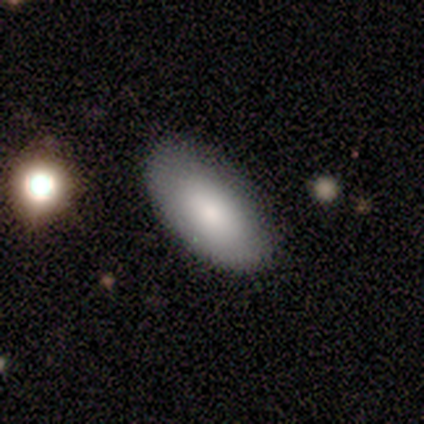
smooth_or_featured: featured or disk (p=0.60) [alt: smooth p=0.40]
disk_edge_on: no (p=1.00)
bar: no (p=1.00)
has_spiral_arms: no (p=1.00)
bulge_size: small (p=1.00)
merging: none (p=0.60) [alt: minor disturbance p=0.40]